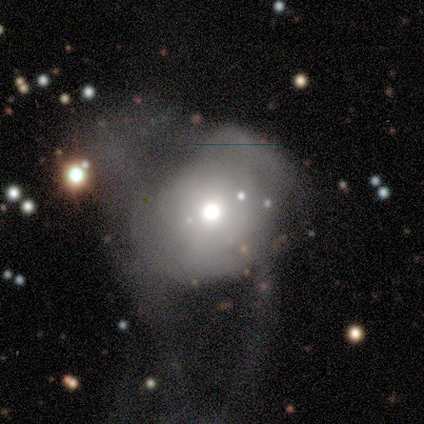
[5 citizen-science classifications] Smooth or featured? smooth (60%)
How rounded? round (67%)
Merging? major disturbance (80%)